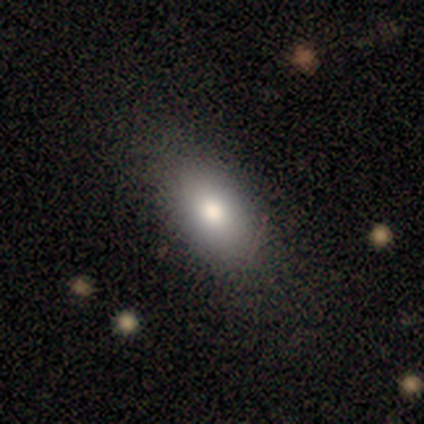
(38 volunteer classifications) A smooth galaxy with no disk features (71%) that is in between round and cigar-shaped (85%). Merging: none (80%).